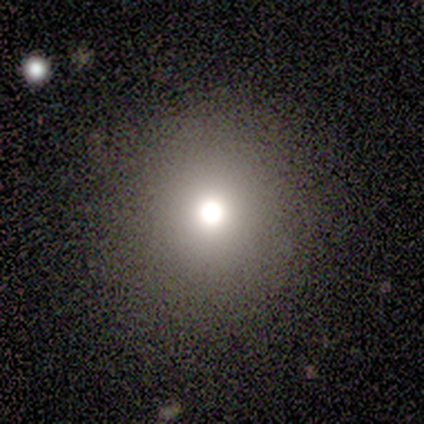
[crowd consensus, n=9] Q: Smooth or featured?
A: smooth (89%); runner-up: featured or disk (11%)
Q: How rounded?
A: round (88%); runner-up: cigar-shaped (12%)
Q: Merging?
A: none (89%); runner-up: major disturbance (11%)